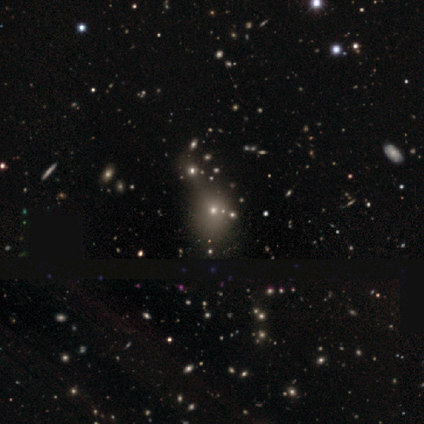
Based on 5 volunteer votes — star or artifact 80%, smooth 20%, featured or disk 0%.